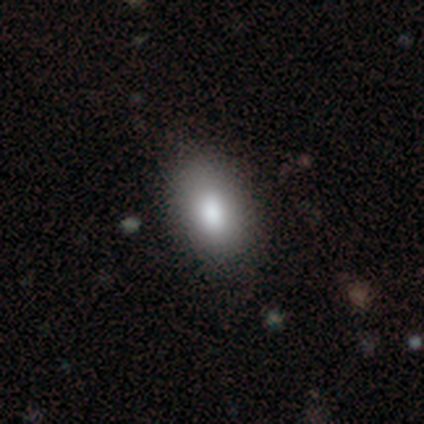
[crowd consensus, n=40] This appears to be a smooth galaxy with no disk features (85%) that is in between round and cigar-shaped (97%). Merging: none (70%).